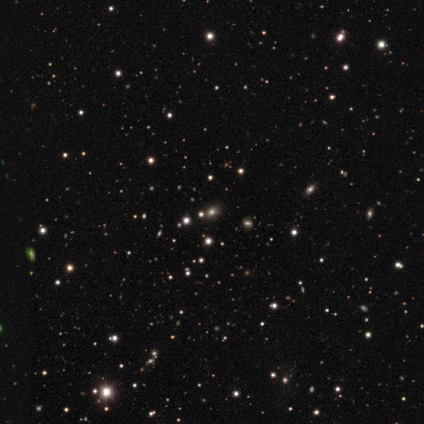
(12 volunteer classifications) Smooth or featured? 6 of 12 (50%, tied with star or artifact) said smooth. How rounded? 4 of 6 (67%) said in between. Merging? 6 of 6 (100%) said none.